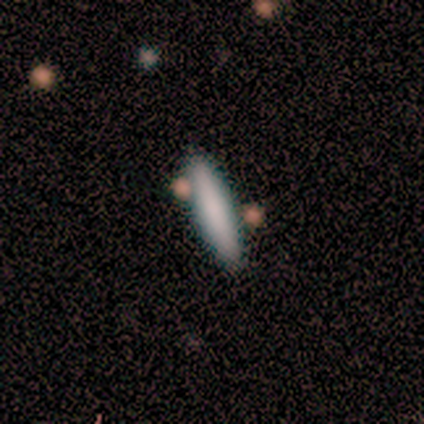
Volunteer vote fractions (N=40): This is clearly a smooth galaxy (80%). How rounded: clearly cigar-shaped (88%). Merging: clearly none (81%).